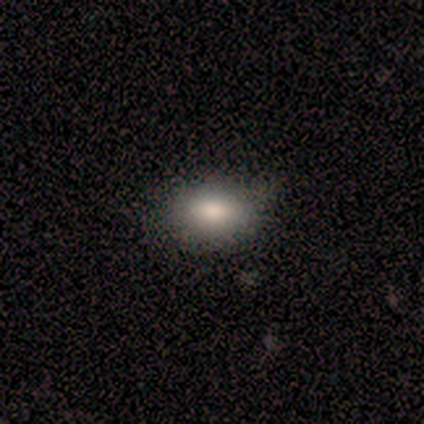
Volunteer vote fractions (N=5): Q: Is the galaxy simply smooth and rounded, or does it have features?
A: smooth — 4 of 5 (80%).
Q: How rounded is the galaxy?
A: in between — 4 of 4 (100%).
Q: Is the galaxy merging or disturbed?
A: none — 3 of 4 (75%).